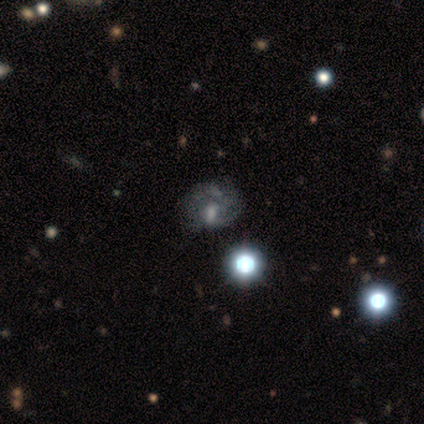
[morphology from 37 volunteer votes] Overall: featured or disk (49%; smooth 38%). Edge-on disk: no (100%). Bar: no (50%; weak 33%). Spiral arms: yes (78%). Spiral arm count: can't tell (57%; 2 21%). Spiral winding: tight (50%; medium 29%). Bulge size: moderate (28%, tied with small and none). Merging: none (47%; major disturbance 28%).